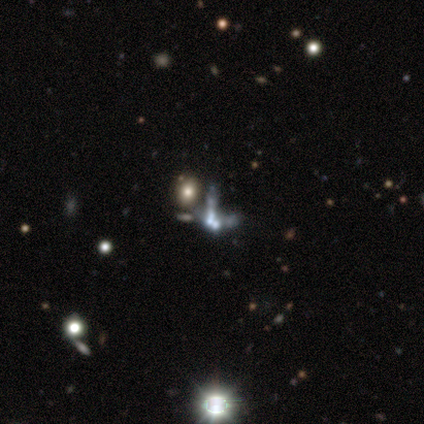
This is possibly a featured or disk galaxy (47%). It is clearly not viewed edge-on (89%). Bar: clearly no (81%). Spiral arm pattern: clearly no (100%). Central bulge: marginally none (38%). Merging: likely merger (60%).